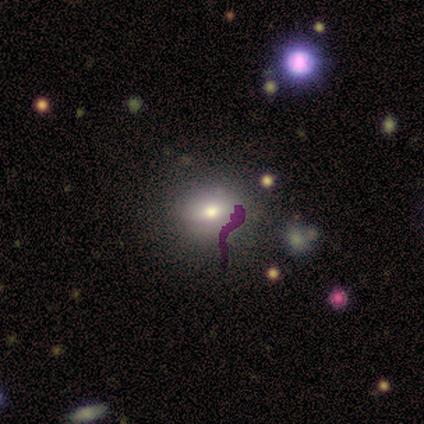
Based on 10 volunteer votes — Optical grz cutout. It shows a smooth galaxy with no disk features (70%) that is round (57%). Merging: none (75%).